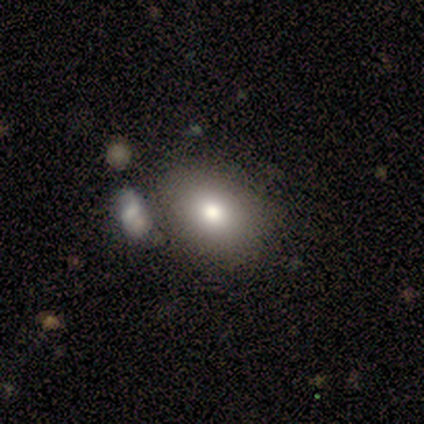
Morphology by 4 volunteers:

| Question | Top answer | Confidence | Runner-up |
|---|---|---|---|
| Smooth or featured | smooth | 75% | star or artifact (25%) |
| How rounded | in between | 100% | — |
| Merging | none | 67% | minor disturbance (33%) |